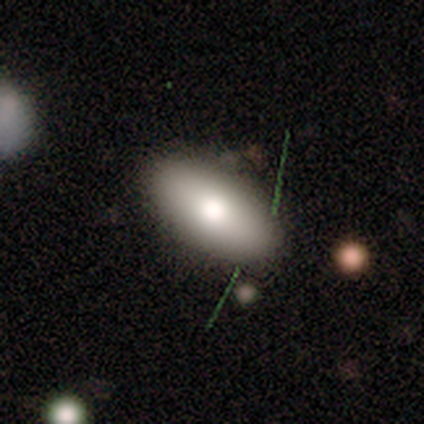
smooth 100%, featured or disk 0%, star or artifact 0%. Down the decision tree: how rounded — in between (100%); merging — none (100%).